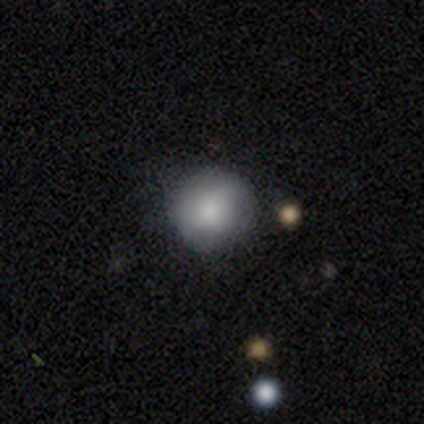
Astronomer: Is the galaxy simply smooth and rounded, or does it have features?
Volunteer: smooth — 89%.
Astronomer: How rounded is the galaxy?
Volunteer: round — 94%.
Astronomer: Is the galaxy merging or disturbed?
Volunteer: none — 91%.